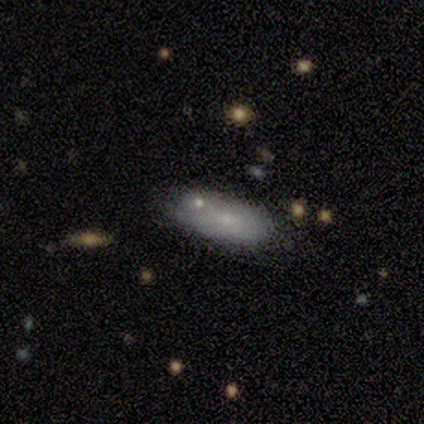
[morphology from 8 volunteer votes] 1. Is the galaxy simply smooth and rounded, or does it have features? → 75% smooth, 25% featured or disk, 0% star or artifact.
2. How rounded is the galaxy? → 100% in between, 0% round, 0% cigar-shaped.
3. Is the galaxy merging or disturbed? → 50% none, 38% minor disturbance, 12% merger, 0% major disturbance.